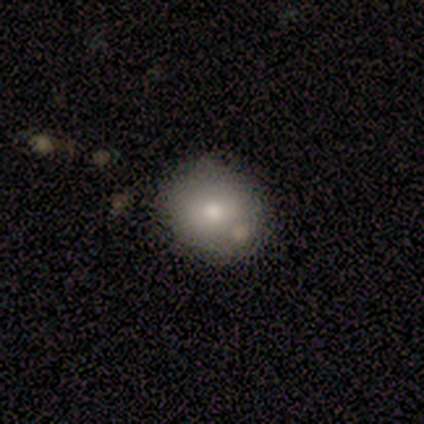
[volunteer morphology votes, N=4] This appears to be a smooth galaxy with no disk features (75%) that is round (67%). Merging: none (75%).